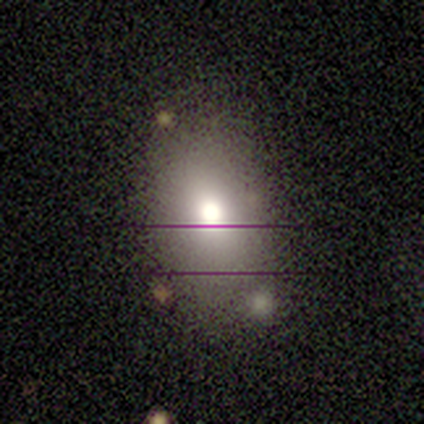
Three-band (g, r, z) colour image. It shows a smooth galaxy with no disk features (100%) that is in between round and cigar-shaped (60%). Merging: none (80%).